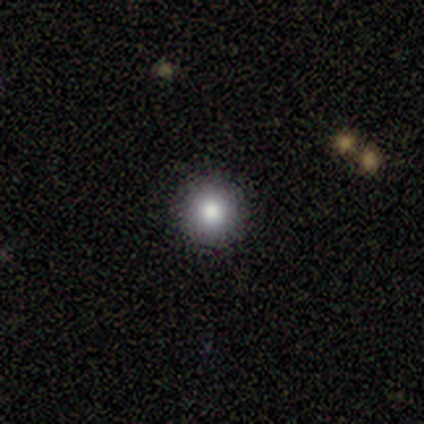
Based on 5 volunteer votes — This is clearly a smooth galaxy (100%). How rounded: clearly round (100%). Merging: clearly none (80%).